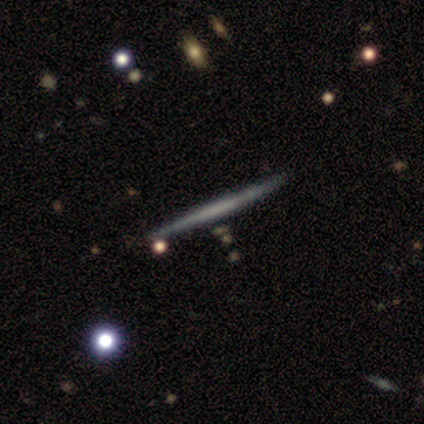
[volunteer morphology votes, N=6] A featured or disk galaxy (83%) viewed edge-on (100%) with no central bulge (100%).

Vote fractions:
- Smooth or featured? featured or disk: 83% / smooth: 17% / star or artifact: 0%
- Edge-on disk? yes: 100% / no: 0%
- Edge-on bulge? none: 100% / boxy: 0% / rounded: 0%
- Merging? none: 100% / minor disturbance: 0% / major disturbance: 0% / merger: 0%